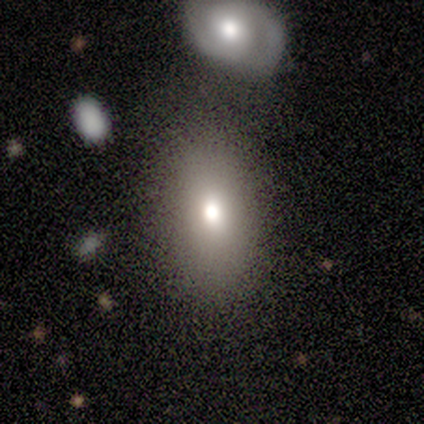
A smooth galaxy with no disk features (84%) that is in between round and cigar-shaped (81%). Merging: none (70%).